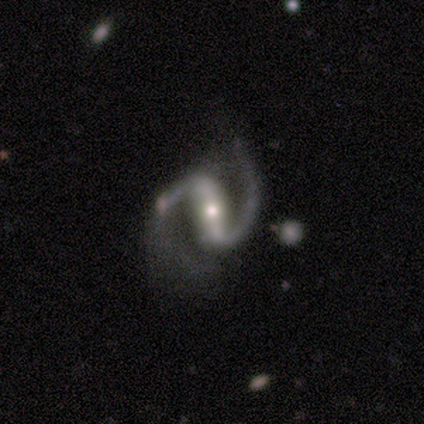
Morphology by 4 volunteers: Volunteers were most divided on "spiral winding" (2-way tie): medium: 50%, loose: 50%, tight: 0%. More confident: smooth or featured — featured or disk (100%); edge-on disk — no (100%); spiral arms — yes (100%); spiral arm count — 2 (100%); bulge size — moderate (75%); bar — strong (50%); merging — minor disturbance (50%).